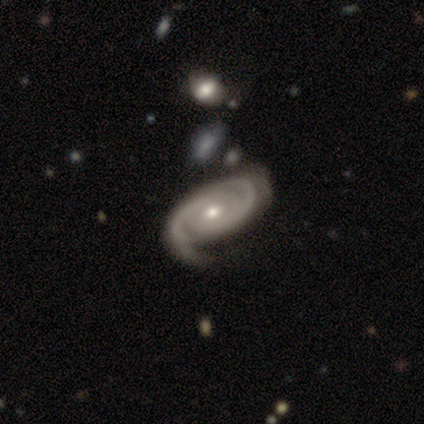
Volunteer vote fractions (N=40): Smooth or featured? 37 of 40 (92%) said featured or disk. Edge-on disk? 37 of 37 (100%) said no. Bar? 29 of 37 (78%) said no. Spiral arms? 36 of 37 (97%) said yes. Spiral winding? 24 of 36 (67%) said tight. Spiral arm count? 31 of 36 (86%) said 2. Bulge size? 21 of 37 (57%) said moderate. Merging? 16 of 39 (41%) said none.